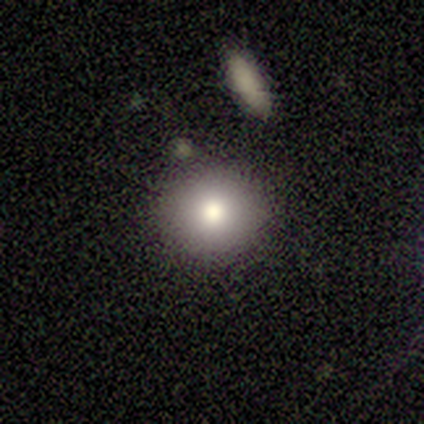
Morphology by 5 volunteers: smooth_or_featured: smooth (p=0.80) [alt: featured or disk p=0.20]
how_rounded: round (p=0.75) [alt: in between p=0.25]
merging: none (p=1.00)